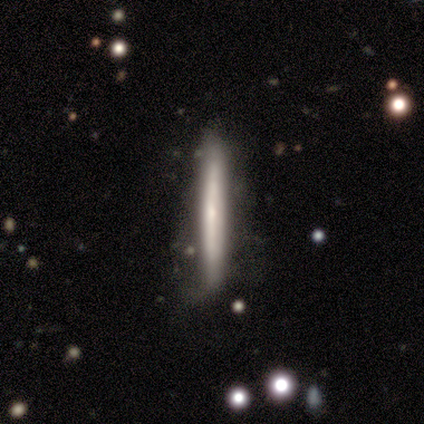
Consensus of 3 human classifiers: Morphology: type=smooth (67%); roundness=cigar-shaped (100%); merging=none (67%).